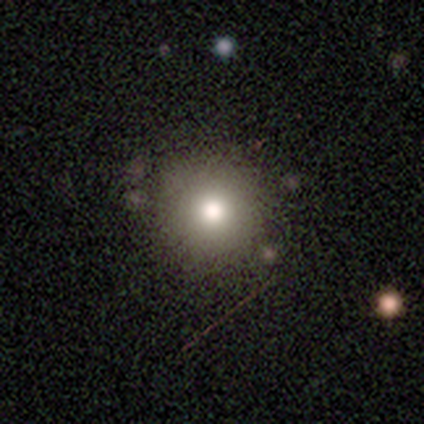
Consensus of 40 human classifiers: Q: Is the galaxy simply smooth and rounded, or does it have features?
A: smooth — 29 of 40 (72%).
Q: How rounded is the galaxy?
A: round — 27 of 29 (93%).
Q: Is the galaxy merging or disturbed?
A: none — 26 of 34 (76%).